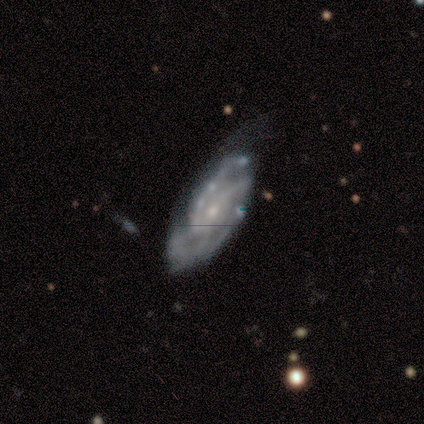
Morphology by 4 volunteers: type=featured or disk (75%); edge-on=no (100%); bar=no (67%); spiral arms=yes (100%); winding=medium (67%); arm count=can't tell (67%); bulge=small (100%); merging=none (75%).